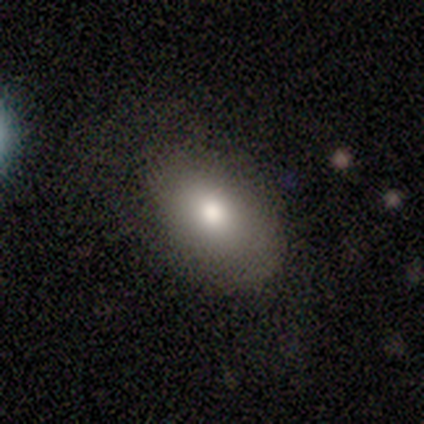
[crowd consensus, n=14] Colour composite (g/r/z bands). It shows a smooth galaxy with no disk features (93%) that is in between round and cigar-shaped (85%). Merging: none (79%).